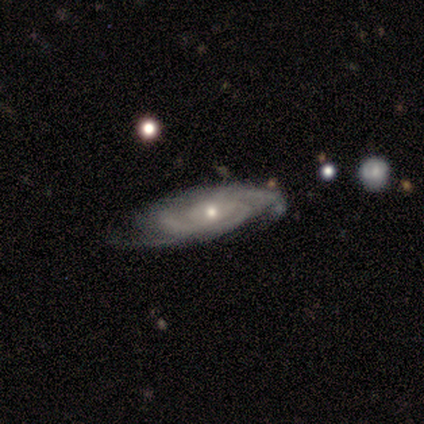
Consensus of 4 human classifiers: Smooth or featured? featured or disk (100%)
Edge-on disk? no (100%)
Bar? no (75%)
Spiral arms? yes (100%)
Spiral winding? tight (75%)
Spiral arm count? can't tell (50%)
Bulge size? small (100%)
Merging? none (75%)